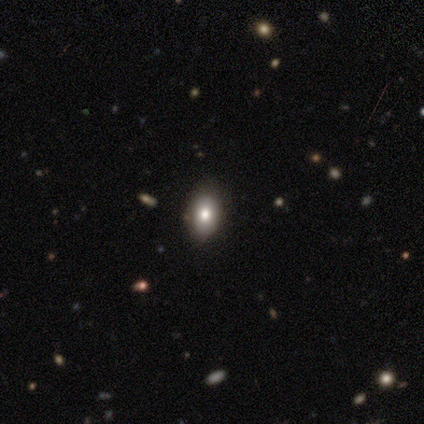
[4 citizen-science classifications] Smooth or featured? 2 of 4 (50%, tied with star or artifact) said smooth. How rounded? 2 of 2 (100%) said in between. Merging? 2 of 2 (100%) said none.